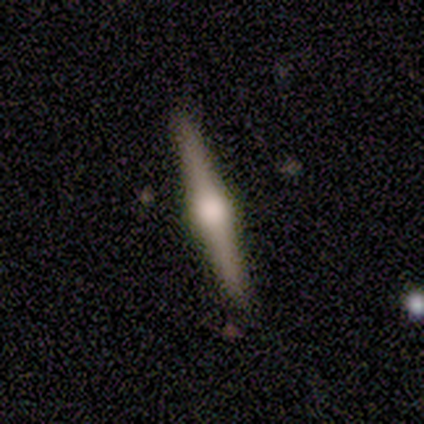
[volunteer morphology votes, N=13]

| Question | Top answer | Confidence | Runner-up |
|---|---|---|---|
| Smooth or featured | featured or disk | 69% | smooth (23%) |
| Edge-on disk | yes | 100% | — |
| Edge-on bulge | rounded | 100% | — |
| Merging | none | 75% | minor disturbance (8%) |